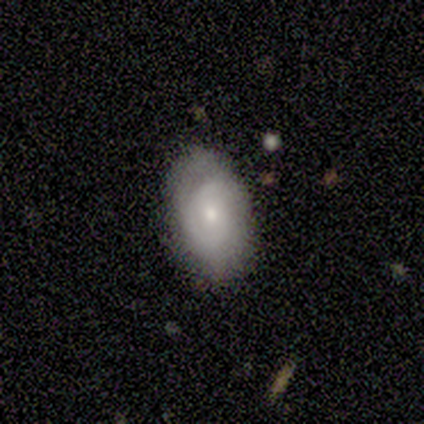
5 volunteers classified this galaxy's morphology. smooth_or_featured: smooth (p=0.60) [alt: featured or disk p=0.40]
how_rounded: in between (p=1.00)
merging: none (p=0.80) [alt: minor disturbance p=0.20]